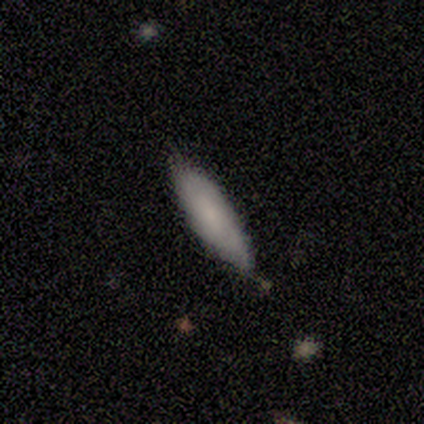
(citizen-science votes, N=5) Smooth or featured? 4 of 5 (80%) said smooth. How rounded? 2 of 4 (50%, tied with cigar-shaped) said in between. Merging? 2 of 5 (40%, tied with minor disturbance) said none.